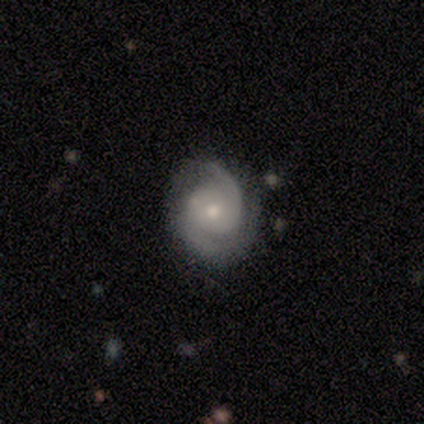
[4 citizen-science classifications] smooth-or-featured: featured or disk: 100% | smooth: 0% | star or artifact: 0%
  disk-edge-on: no: 100% | yes: 0%
    bar: no: 75% | weak: 25% | strong: 0%
    has-spiral-arms: yes: 100% | no: 0%
      spiral-winding: medium: 75% | tight: 25% | loose: 0%
      spiral-arm-count: 2: 100% | 1: 0% | 3: 0% | 4: 0% | more than 4: 0% | can't tell: 0%
    bulge-size: moderate: 50% (tied) | small: 50% (tied) | dominant: 0% | large: 0% | none: 0%
  merging: none: 75% | major disturbance: 25% | minor disturbance: 0% | merger: 0%